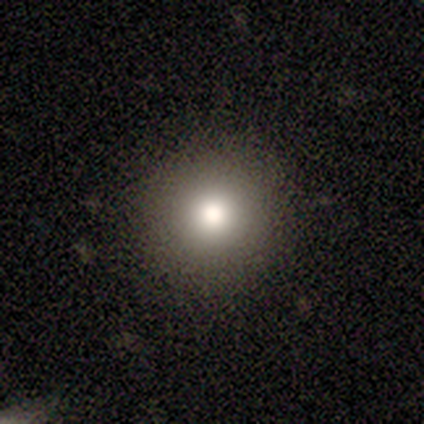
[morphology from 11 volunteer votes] A smooth galaxy with no disk features (82%) that is round (100%).

Vote fractions:
- Smooth or featured? smooth: 82% / featured or disk: 9% / star or artifact: 9%
- How rounded? round: 100% / in between: 0% / cigar-shaped: 0%
- Merging? none: 90% / minor disturbance: 10% / major disturbance: 0% / merger: 0%